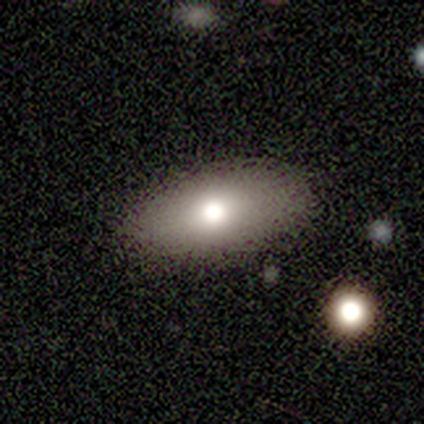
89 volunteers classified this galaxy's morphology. A smooth galaxy with no disk features (74%) that is in between round and cigar-shaped (91%).

Vote fractions:
- Smooth or featured? smooth: 74% / featured or disk: 16% / star or artifact: 10%
- How rounded? in between: 91% / cigar-shaped: 6% / round: 3%
- Merging? none: 90% / minor disturbance: 10% / major disturbance: 0% / merger: 0%